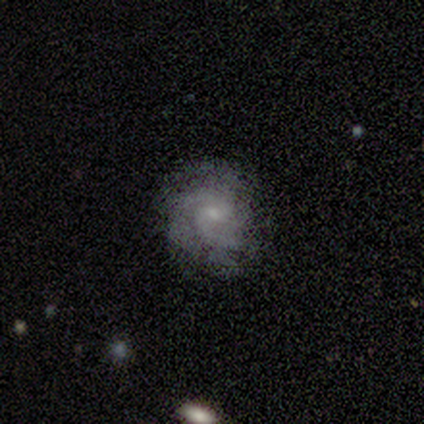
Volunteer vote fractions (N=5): smooth_or_featured: featured or disk (p=0.80) [alt: smooth p=0.20]
disk_edge_on: no (p=1.00)
bar: no (p=0.75) [alt: weak p=0.25]
has_spiral_arms: yes (p=1.00)
spiral_winding: tight (p=0.50) [tied with: medium p=0.50]
spiral_arm_count: 2 (p=0.50) [tied with: 3 p=0.50]
bulge_size: small (p=0.50) [tied with: none p=0.50]
merging: none (p=0.80) [alt: minor disturbance p=0.20]